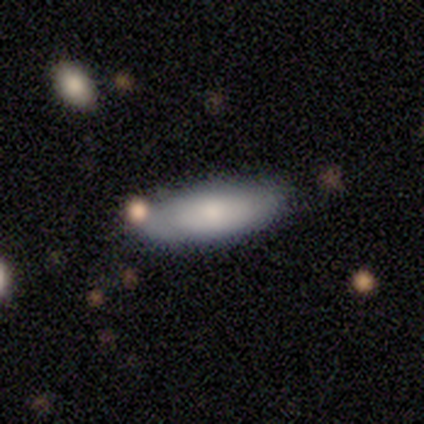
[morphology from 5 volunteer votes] Volunteers were most divided on "smooth or featured": smooth: 60%, featured or disk: 40%, star or artifact: 0%. More confident: merging — none (80%); how rounded — in between (67%).